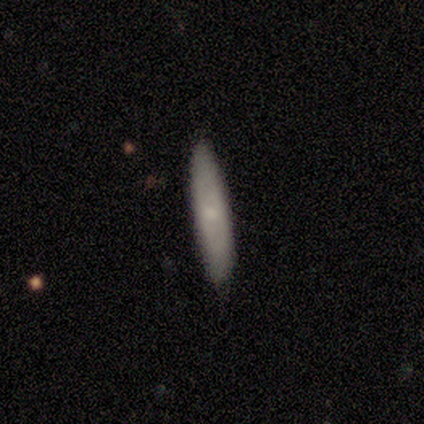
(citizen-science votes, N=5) This appears to be a smooth galaxy with no disk features (80%) that is cigar-shaped (100%). Merging: none (100%).